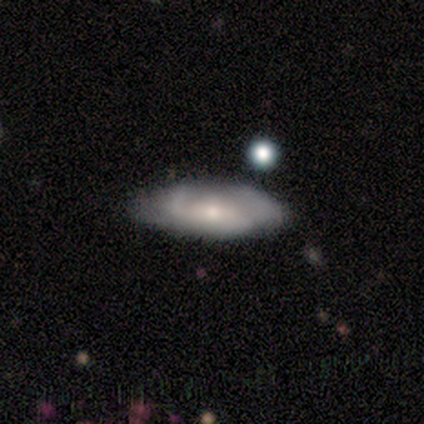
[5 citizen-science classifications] Overall: featured or disk (60%; smooth 40%). Edge-on disk: no (100%). Bar: no (67%; strong 33%). Spiral arms: yes (67%; no 33%). Spiral arm count: 1 (50%, tied with 2). Spiral winding: medium (50%, tied with loose). Bulge size: small (100%). Merging: none (80%).